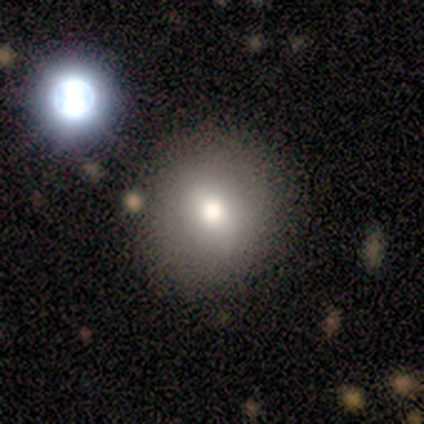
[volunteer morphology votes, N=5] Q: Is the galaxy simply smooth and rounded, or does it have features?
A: smooth — 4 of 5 (80%).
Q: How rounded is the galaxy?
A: round — 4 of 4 (100%).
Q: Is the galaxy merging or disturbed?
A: none — 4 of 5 (80%).